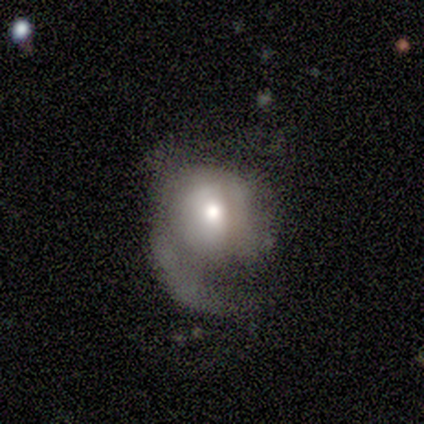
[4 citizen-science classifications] Smooth or featured? smooth (75%)
How rounded? in between (67%)
Merging? major disturbance (75%)